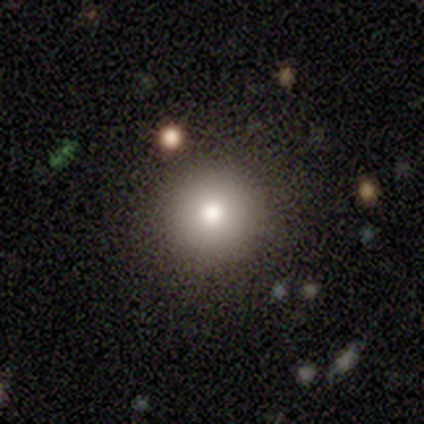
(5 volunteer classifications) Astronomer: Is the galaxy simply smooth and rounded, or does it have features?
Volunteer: featured or disk — 80%.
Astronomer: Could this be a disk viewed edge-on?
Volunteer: no — 100%.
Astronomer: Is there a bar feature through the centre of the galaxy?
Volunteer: no — 100%.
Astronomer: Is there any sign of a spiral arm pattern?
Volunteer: no — 100%.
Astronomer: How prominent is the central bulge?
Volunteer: moderate — 50%.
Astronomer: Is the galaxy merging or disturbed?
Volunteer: none — 100%.